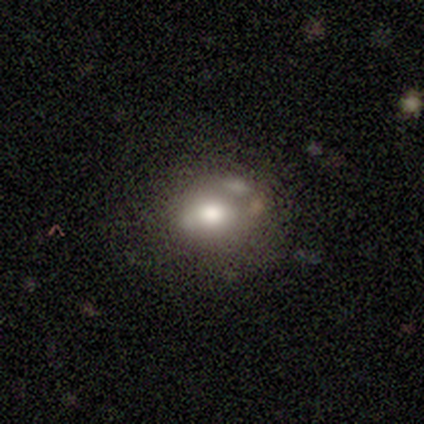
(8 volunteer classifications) This is likely a smooth galaxy (62%). How rounded: likely round (60%). Merging: marginally none (43%, tied with major disturbance).